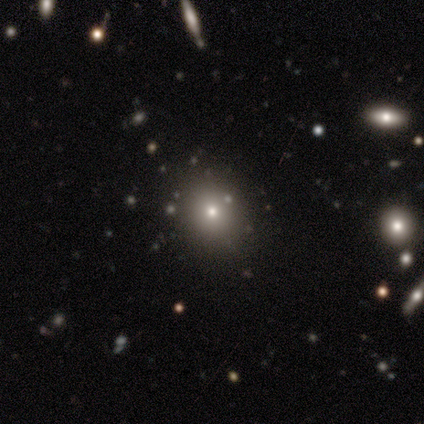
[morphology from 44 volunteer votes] Q: Smooth or featured?
A: smooth (52%); runner-up: star or artifact (34%)
Q: How rounded?
A: round (78%); runner-up: in between (22%)
Q: Merging?
A: none (76%); runner-up: minor disturbance (24%)